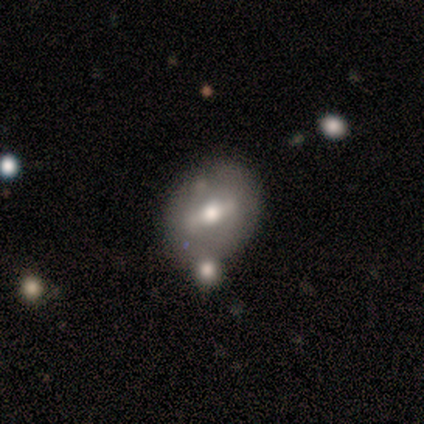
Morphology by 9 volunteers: Volunteers were most divided on "bar" (2-way tie): strong: 50%, weak: 50%, no: 0%. Remaining: spiral arms — no (100%); edge-on disk — no (86%); smooth or featured — featured or disk (78%); bulge size — moderate (50%); merging — none (44%).